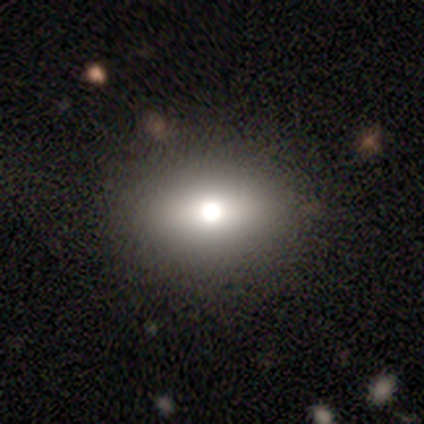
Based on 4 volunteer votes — A smooth galaxy with no disk features (50%, tied with featured or disk) that is round (50%, tied with in between). Merging: none (100%).